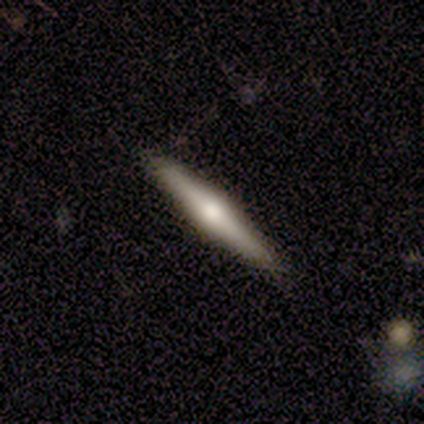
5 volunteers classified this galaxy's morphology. type=featured or disk (80%); edge-on=yes (100%); edge-on bulge=boxy (50%, tied with rounded); merging=none (80%).